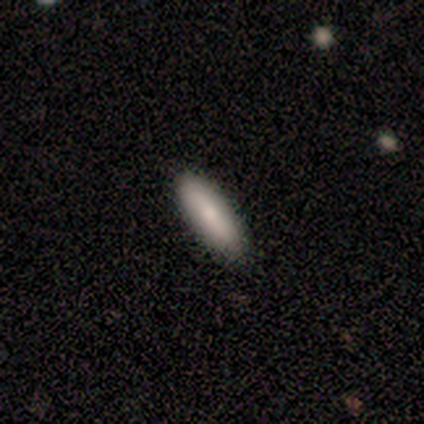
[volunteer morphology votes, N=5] Q: Smooth or featured?
A: smooth (60%); runner-up: featured or disk (20%)
Q: How rounded?
A: cigar-shaped (100%)
Q: Merging?
A: none (50%); tied with: minor disturbance (50%)